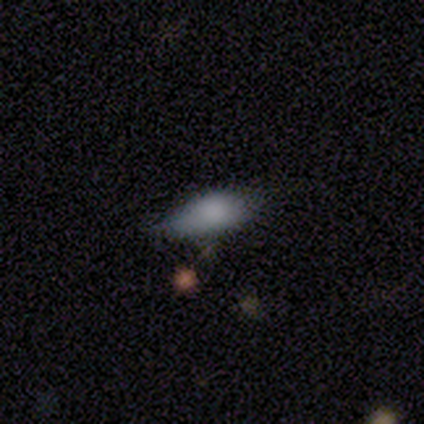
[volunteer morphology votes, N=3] Smooth or featured: smooth — 67% (featured or disk — 33%)
How rounded: in between — 100%
Merging: none — 100%